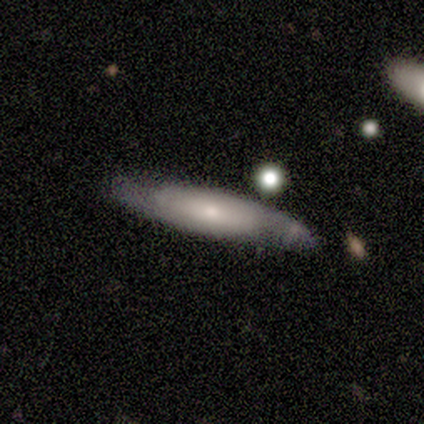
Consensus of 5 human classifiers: Smooth or featured?
  - featured or disk: 80% *
  - smooth: 20%
  - star or artifact: 0%
Edge-on disk?
  - no: 75% *
  - yes: 25%
Bar?
  - no: 67% *
  - weak: 33%
  - strong: 0%
Spiral arms?
  - no: 67% *
  - yes: 33%
Bulge size?
  - small: 67% *
  - moderate: 33%
  - dominant: 0%
  - large: 0%
  - none: 0%
Merging?
  - none: 80% *
  - minor disturbance: 20%
  - major disturbance: 0%
  - merger: 0%